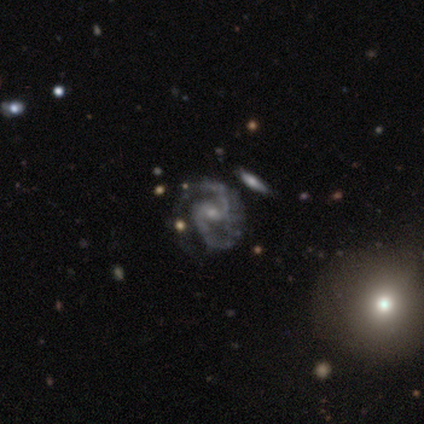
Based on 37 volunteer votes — Q: Smooth or featured?
A: featured or disk (97%); runner-up: star or artifact (3%)
Q: Edge-on disk?
A: no (97%); runner-up: yes (3%)
Q: Bar?
A: weak (51%); runner-up: no (40%)
Q: Spiral arms?
A: yes (97%); runner-up: no (3%)
Q: Spiral winding?
A: medium (59%); runner-up: tight (32%)
Q: Spiral arm count?
A: 2 (97%); runner-up: 3 (3%)
Q: Bulge size?
A: small (74%); runner-up: moderate (23%)
Q: Merging?
A: none (67%); runner-up: minor disturbance (19%)